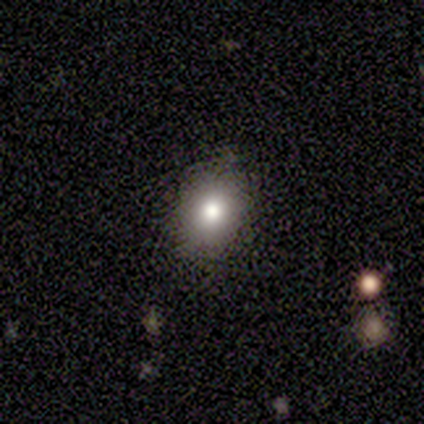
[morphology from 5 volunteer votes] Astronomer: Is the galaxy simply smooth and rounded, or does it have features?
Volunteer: smooth — 80%.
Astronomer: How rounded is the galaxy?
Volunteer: round — 50%, tied with in between at 50%.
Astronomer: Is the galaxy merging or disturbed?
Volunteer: none — 100%.